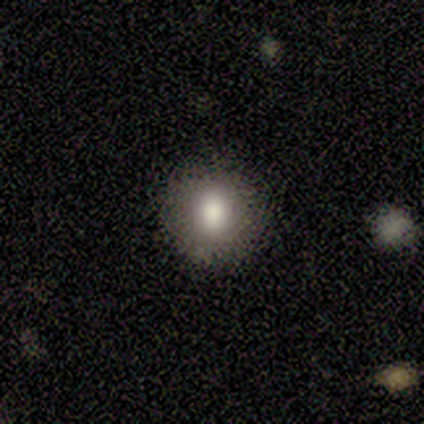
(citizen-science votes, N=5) Smooth or featured: smooth — 60% (featured or disk — 40%)
How rounded: round — 100%
Merging: none — 100%